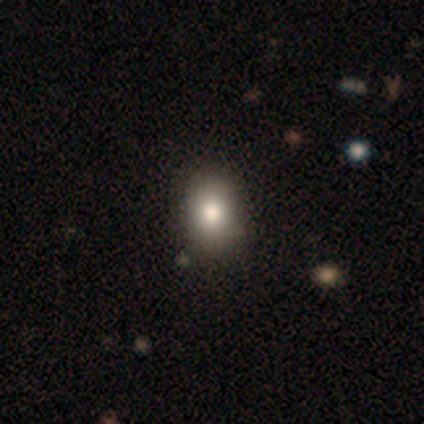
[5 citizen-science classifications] Smooth or featured? smooth (60%)
How rounded? in between (100%)
Merging? none (100%)